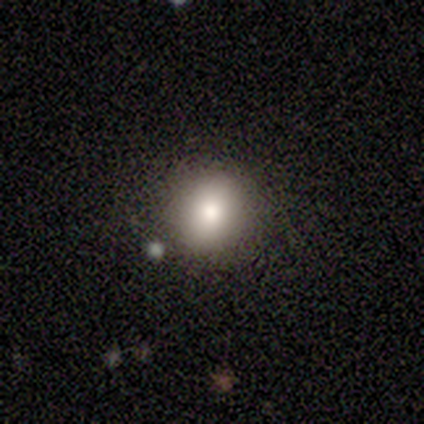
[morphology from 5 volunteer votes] smooth_or_featured: smooth (p=1.00)
how_rounded: round (p=1.00)
merging: none (p=1.00)